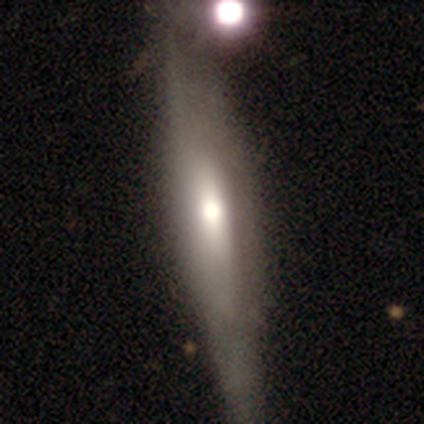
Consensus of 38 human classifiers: A featured or disk galaxy (53%) viewed edge-on (95%) with a rounded central bulge (84%).

Vote fractions:
- Smooth or featured? featured or disk: 53% / smooth: 47% / star or artifact: 0%
- Edge-on disk? yes: 95% / no: 5%
- Edge-on bulge? rounded: 84% / boxy: 11% / none: 5%
- Merging? none: 58% / minor disturbance: 26% / merger: 13% / major disturbance: 3%